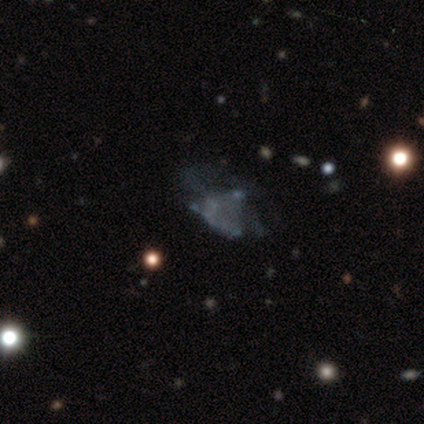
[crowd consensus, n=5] This is clearly a featured or disk galaxy (80%). It is clearly not viewed edge-on (100%). Bar: clearly no (100%). Spiral arm pattern: clearly no (100%). Central bulge: likely none (75%). Merging: possibly major disturbance (50%).